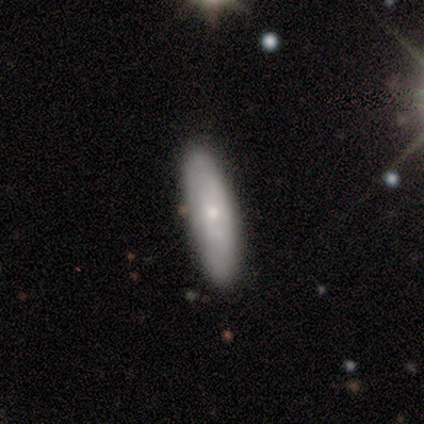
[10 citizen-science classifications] This appears to be a smooth galaxy with no disk features (70%) that is cigar-shaped (86%). Merging: none (90%).